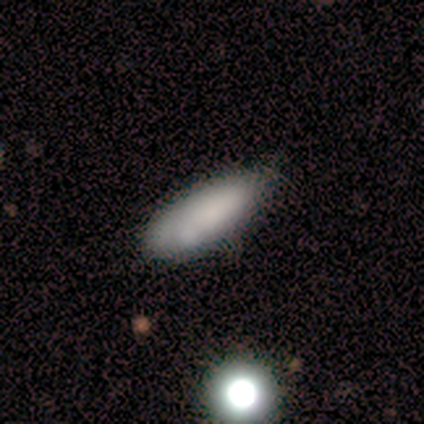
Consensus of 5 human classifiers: A smooth galaxy with no disk features (80%) that is in between round and cigar-shaped (50%, tied with cigar-shaped). Merging: none (60%).